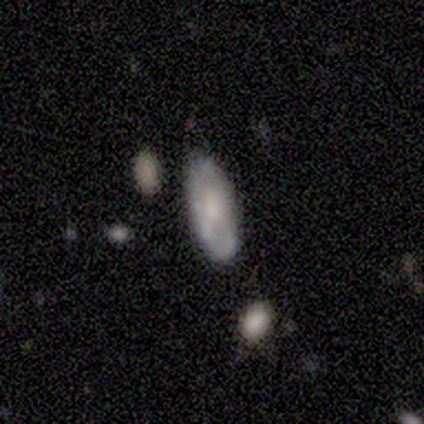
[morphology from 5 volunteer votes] Volunteers were most divided on "smooth or featured": smooth: 60%, featured or disk: 40%, star or artifact: 0%. More confident: how rounded — in between (67%); merging — minor disturbance (60%).